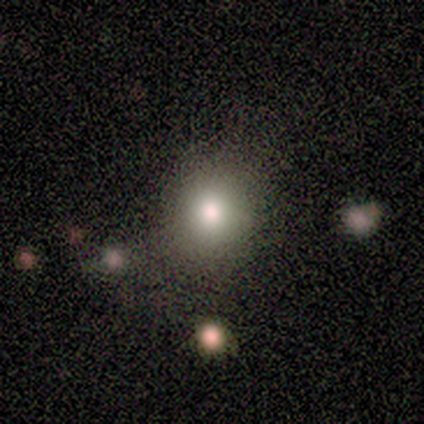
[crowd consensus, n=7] Morphology: type=smooth (57%); roundness=round (100%); merging=none (67%).